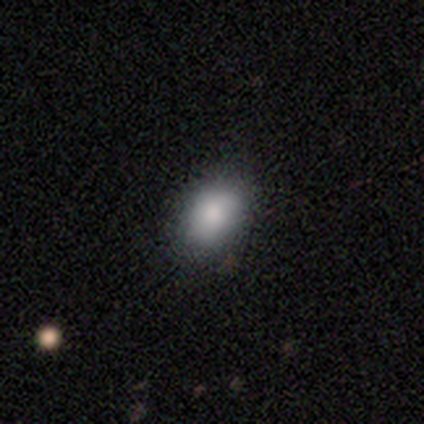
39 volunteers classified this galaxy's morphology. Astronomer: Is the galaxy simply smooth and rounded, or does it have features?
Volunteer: smooth — 79%.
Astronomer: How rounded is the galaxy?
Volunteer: in between — 84%.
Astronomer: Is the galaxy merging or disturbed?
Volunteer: none — 78%.